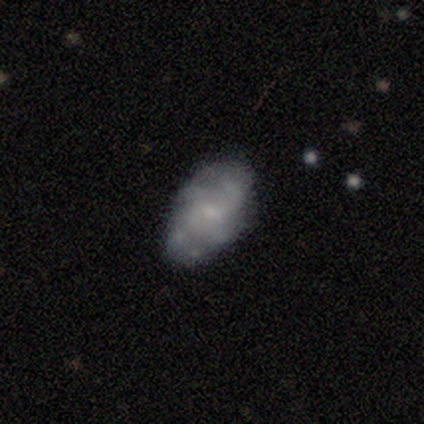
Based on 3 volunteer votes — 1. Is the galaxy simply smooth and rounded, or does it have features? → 100% featured or disk, 0% smooth, 0% star or artifact.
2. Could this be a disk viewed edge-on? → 100% no, 0% yes.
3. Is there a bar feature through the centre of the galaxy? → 100% no, 0% strong, 0% weak.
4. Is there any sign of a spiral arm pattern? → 67% yes, 33% no.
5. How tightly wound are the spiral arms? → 100% loose, 0% tight, 0% medium.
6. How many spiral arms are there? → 50% 4 (tied), 50% can't tell (tied), 0% 1, 0% 2, 0% 3, 0% more than 4.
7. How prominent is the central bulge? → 33% moderate (tied), 33% small (tied), 33% none (tied), 0% dominant, 0% large.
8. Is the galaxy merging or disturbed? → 67% none, 33% minor disturbance, 0% major disturbance, 0% merger.